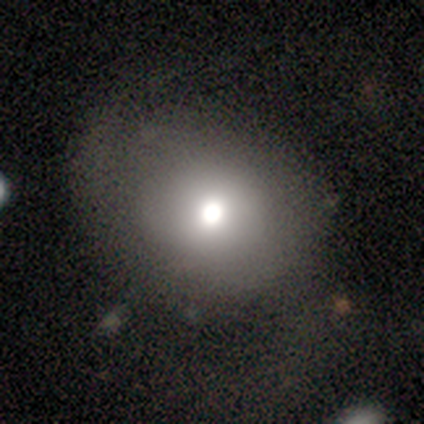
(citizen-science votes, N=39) Smooth or featured: smooth — 64% (featured or disk — 28%)
How rounded: round — 68% (in between — 32%)
Merging: none — 47% (major disturbance — 17%)